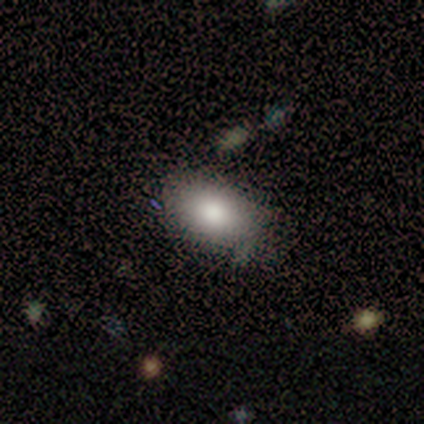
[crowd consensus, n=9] Smooth or featured?
  - smooth: 78% *
  - featured or disk: 22%
  - star or artifact: 0%
How rounded?
  - in between: 100% *
  - round: 0%
  - cigar-shaped: 0%
Merging?
  - none: 67% *
  - minor disturbance: 33%
  - major disturbance: 0%
  - merger: 0%